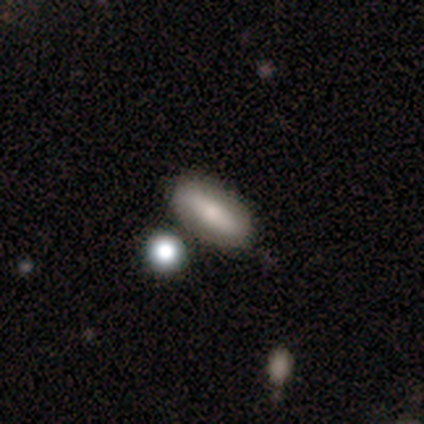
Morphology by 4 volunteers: This is clearly a smooth galaxy (100%). How rounded: likely in between (75%). Merging: possibly none (50%, tied with minor disturbance).